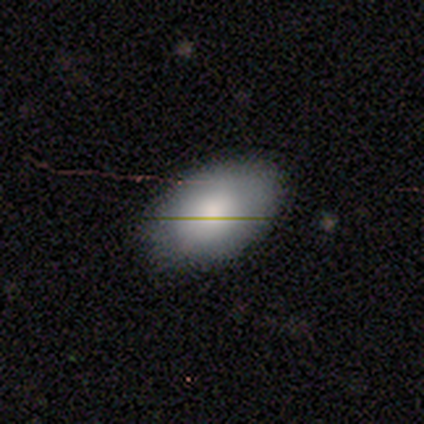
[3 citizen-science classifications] Smooth or featured? 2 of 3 (67%) said smooth. How rounded? 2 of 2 (100%) said in between. Merging? 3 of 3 (100%) said none.